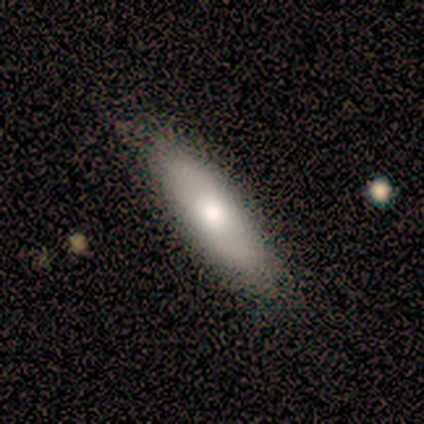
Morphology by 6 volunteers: Smooth or featured: smooth — 100%
How rounded: cigar-shaped — 67% (in between — 33%)
Merging: none — 100%